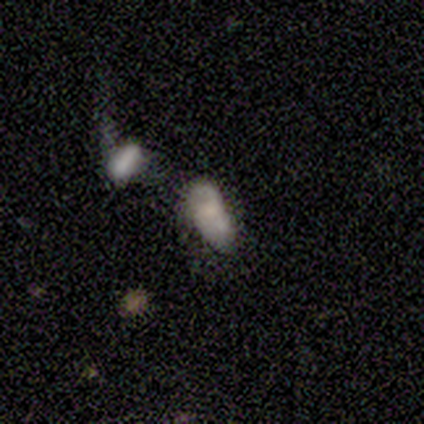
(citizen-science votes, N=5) Q: Smooth or featured?
A: smooth (80%); runner-up: featured or disk (20%)
Q: How rounded?
A: in between (100%)
Q: Merging?
A: minor disturbance (40%); tied with: merger (40%)